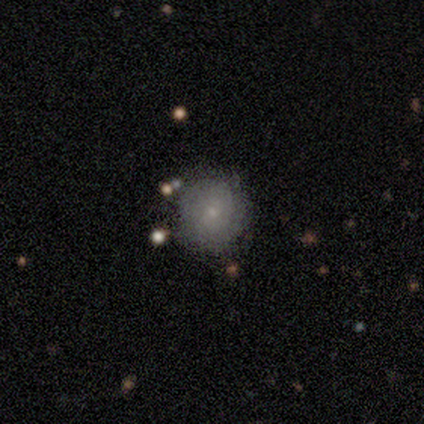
Smooth or featured? 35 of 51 (69%) said smooth. How rounded? 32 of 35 (91%) said round. Merging? 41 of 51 (80%) said none.